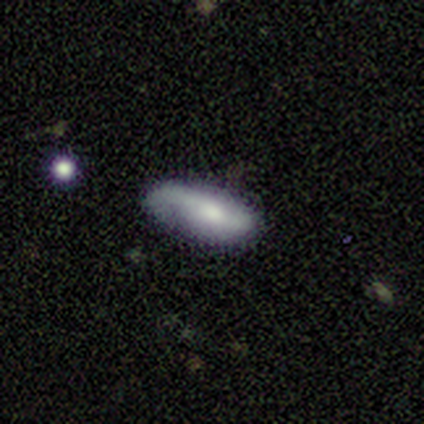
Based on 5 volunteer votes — A smooth galaxy with no disk features (60%) that is in between round and cigar-shaped (100%). Merging: minor disturbance (40%, tied with major disturbance).